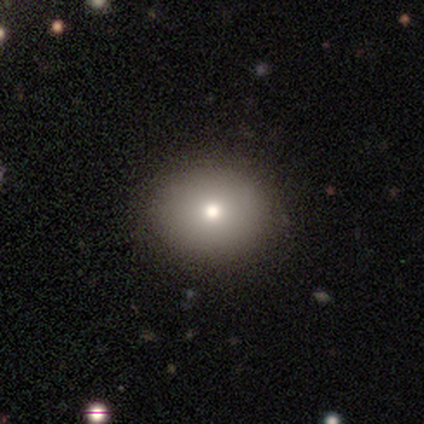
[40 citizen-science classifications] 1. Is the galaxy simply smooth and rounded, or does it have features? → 82% smooth, 12% featured or disk, 5% star or artifact.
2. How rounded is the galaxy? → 73% round, 27% in between, 0% cigar-shaped.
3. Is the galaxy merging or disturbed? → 84% none, 0% minor disturbance, 0% major disturbance, 0% merger.